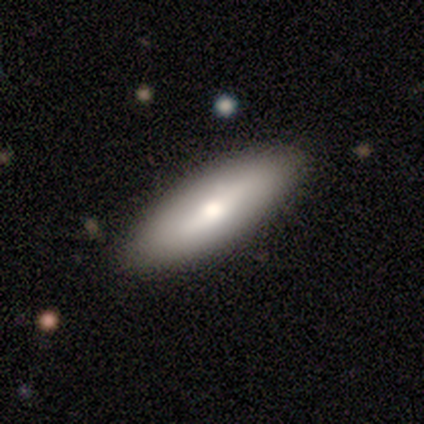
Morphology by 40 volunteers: Q: Smooth or featured?
A: smooth (50%); runner-up: featured or disk (45%)
Q: How rounded?
A: in between (65%); runner-up: cigar-shaped (30%)
Q: Merging?
A: none (95%); runner-up: minor disturbance (5%)